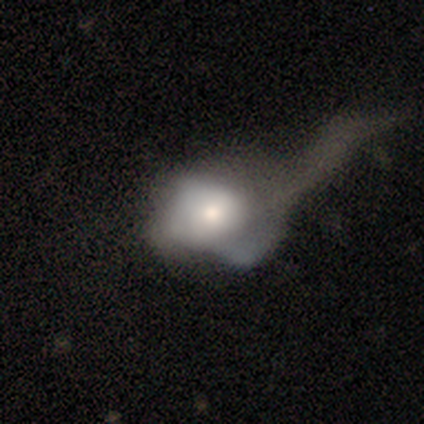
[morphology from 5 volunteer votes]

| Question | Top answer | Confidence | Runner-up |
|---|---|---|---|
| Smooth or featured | smooth | 60% | featured or disk (40%) |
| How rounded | in between | 67% | round (33%) |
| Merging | major disturbance | 80% | merger (20%) |